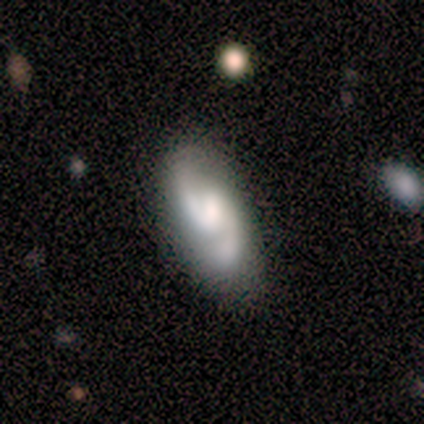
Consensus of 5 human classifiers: featured or disk 100%, smooth 0%, star or artifact 0%. Down the decision tree: edge-on disk — no (100%); bar — weak (60%); spiral arms — yes (100%); spiral arm count — 2 (80%); spiral winding — medium (100%); bulge size — moderate (40%, tied with small); merging — none (100%).